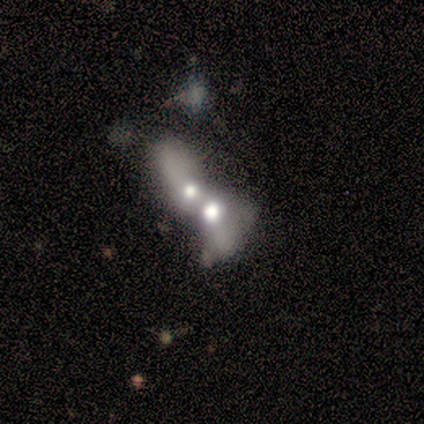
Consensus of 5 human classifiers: Q: Smooth or featured?
A: featured or disk (80%); runner-up: smooth (20%)
Q: Edge-on disk?
A: no (100%)
Q: Bar?
A: no (75%); runner-up: weak (25%)
Q: Spiral arms?
A: no (100%)
Q: Bulge size?
A: large (50%); tied with: moderate (50%)
Q: Merging?
A: merger (100%)